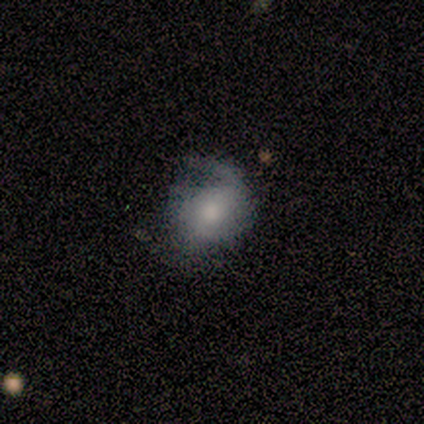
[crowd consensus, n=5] Smooth or featured?
  - featured or disk: 60% *
  - smooth: 20%
  - star or artifact: 20%
Edge-on disk?
  - no: 100% *
  - yes: 0%
Bar?
  - weak: 67% *
  - no: 33%
  - strong: 0%
Spiral arms?
  - yes: 67% *
  - no: 33%
Spiral winding?
  - tight: 50% * (tied)
  - medium: 50% * (tied)
  - loose: 0%
Spiral arm count?
  - 1: 50% * (tied)
  - 2: 50% * (tied)
  - 3: 0%
  - 4: 0%
  - more than 4: 0%
  - can't tell: 0%
Bulge size?
  - large: 33% * (tied)
  - moderate: 33% * (tied)
  - small: 33% * (tied)
  - dominant: 0%
  - none: 0%
Merging?
  - none: 100% *
  - minor disturbance: 0%
  - major disturbance: 0%
  - merger: 0%